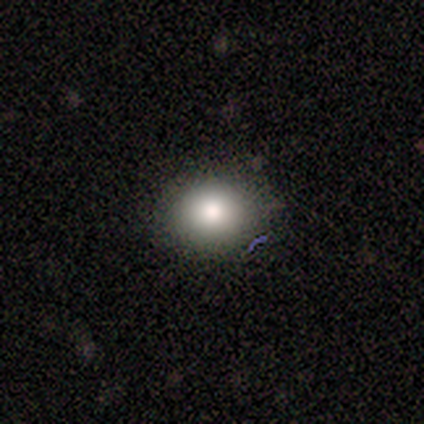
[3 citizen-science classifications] This is clearly a smooth galaxy (100%). How rounded: likely in between (67%). Merging: clearly none (100%).